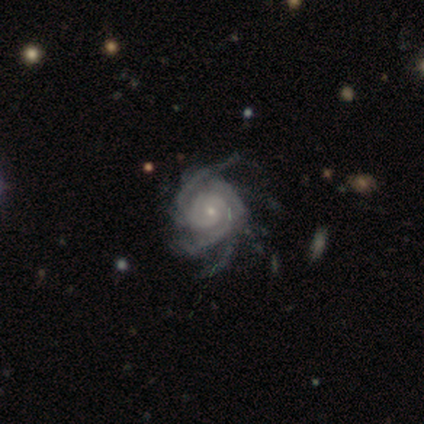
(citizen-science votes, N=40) smooth_or_featured: featured or disk (p=0.95) [alt: smooth p=0.03]
disk_edge_on: no (p=0.95) [alt: yes p=0.05]
bar: no (p=0.69) [alt: weak p=0.31]
has_spiral_arms: yes (p=0.97) [alt: no p=0.03]
spiral_winding: tight (p=0.74) [alt: medium p=0.17]
spiral_arm_count: 3 (p=0.26) [tied with: more than 4 p=0.26]
bulge_size: small (p=0.72) [alt: moderate p=0.25]
merging: none (p=0.56) [alt: minor disturbance p=0.13]